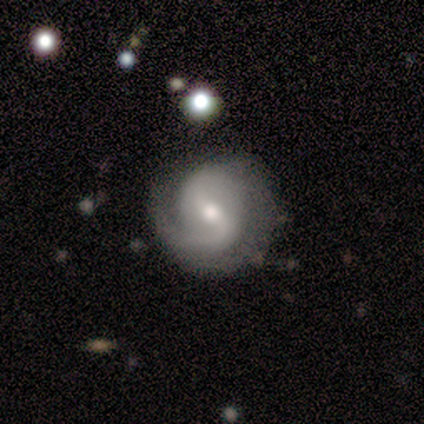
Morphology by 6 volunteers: featured or disk 100%, smooth 0%, star or artifact 0%. Down the decision tree: edge-on disk — no (100%); bar — weak (50%); spiral arms — yes (100%); spiral arm count — 2 (100%); spiral winding — medium (67%); bulge size — moderate (50%); merging — none (83%).